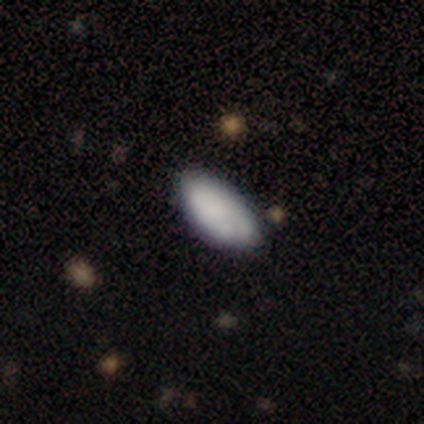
Overall: smooth (86%). How rounded: in between (100%). Merging: none (77%).